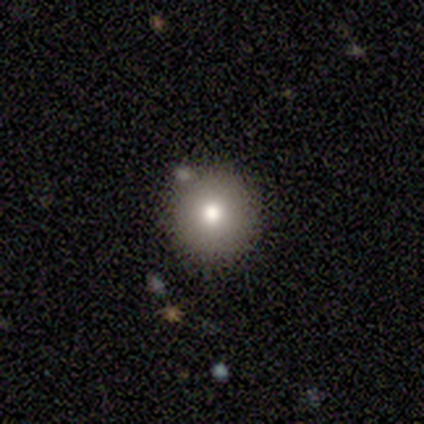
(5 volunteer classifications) Overall: smooth (80%). How rounded: round (100%). Merging: none (80%).